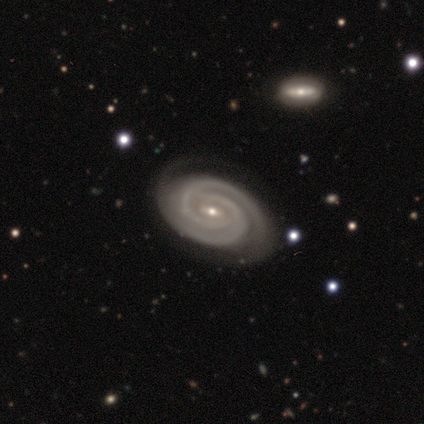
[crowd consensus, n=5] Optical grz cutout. It shows a featured or disk galaxy (100%) with no bar (80%), 2 (40%, tied with 3) tight (80%) spiral arms (100%) and a small central bulge (80%). Merging: none (80%).